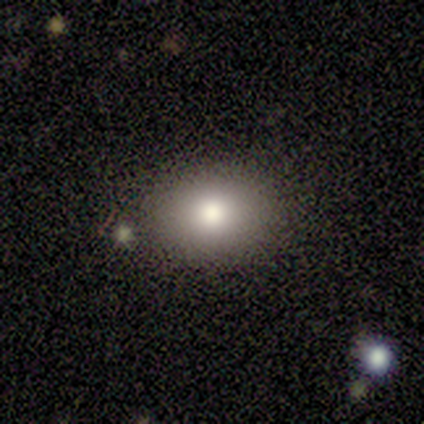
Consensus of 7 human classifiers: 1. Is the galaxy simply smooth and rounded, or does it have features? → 57% smooth, 29% featured or disk, 14% star or artifact.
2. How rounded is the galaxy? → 75% in between, 25% round, 0% cigar-shaped.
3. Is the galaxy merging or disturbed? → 67% none, 33% minor disturbance, 0% major disturbance, 0% merger.